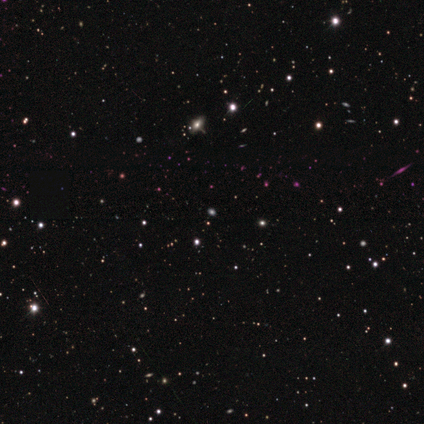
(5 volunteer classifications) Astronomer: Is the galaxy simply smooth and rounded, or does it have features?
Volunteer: star or artifact — 80%.